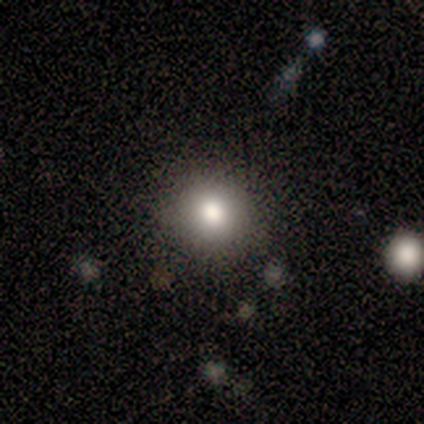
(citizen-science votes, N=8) Q: Smooth or featured?
A: star or artifact (50%); runner-up: smooth (25%)